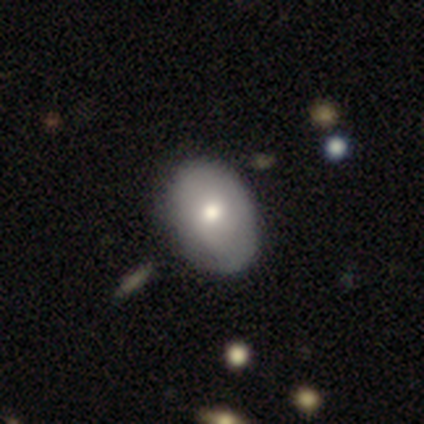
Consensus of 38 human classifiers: smooth 66%, featured or disk 32%, star or artifact 3%. Down the decision tree: how rounded — in between (88%); merging — none (57%).